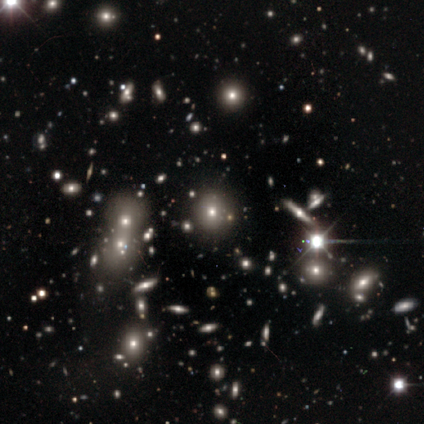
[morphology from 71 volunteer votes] A smooth galaxy with no disk features (54%) that is round (74%).

Vote fractions:
- Smooth or featured? smooth: 54% / star or artifact: 31% / featured or disk: 15%
- How rounded? round: 74% / in between: 21% / cigar-shaped: 5%
- Merging? none: 88% / merger: 10% / minor disturbance: 2% / major disturbance: 0%